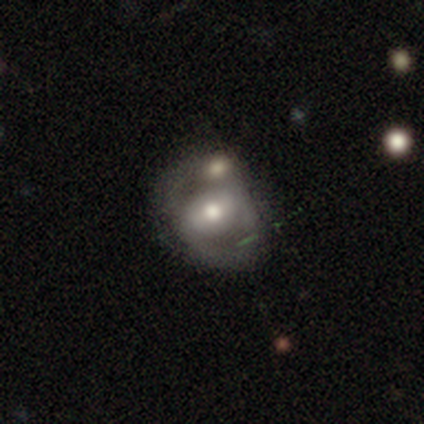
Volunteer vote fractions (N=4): Smooth or featured? 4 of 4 (100%) said featured or disk. Edge-on disk? 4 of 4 (100%) said no. Bar? 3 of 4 (75%) said weak. Spiral arms? 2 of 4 (50%, tied with no) said yes. Spiral winding? 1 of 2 (50%, tied with loose) said medium. Spiral arm count? 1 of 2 (50%, tied with 2) said 1. Bulge size? 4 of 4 (100%) said moderate. Merging? 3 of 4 (75%) said none.